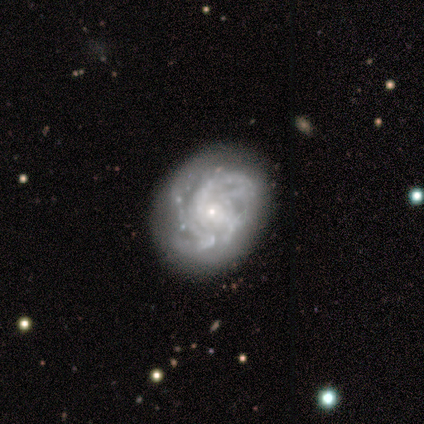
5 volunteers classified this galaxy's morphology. This is clearly a featured or disk galaxy (80%). It is clearly not viewed edge-on (100%). Bar: possibly weak (50%, tied with no). Spiral arm pattern: clearly yes (100%). Spiral arm count: likely 2 (75%). Spiral winding: possibly tight (50%, tied with medium). Central bulge: clearly small (100%). Merging: likely none (60%).